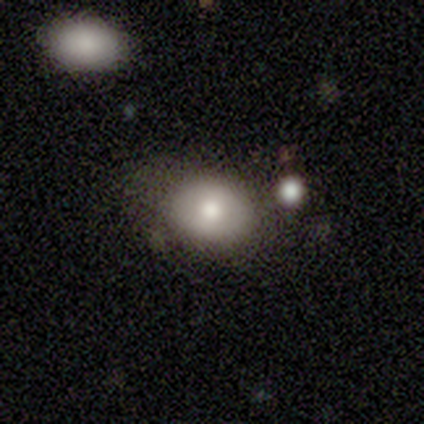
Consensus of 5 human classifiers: This appears to be a smooth galaxy with no disk features (100%) that is round (60%). Merging: none (60%).